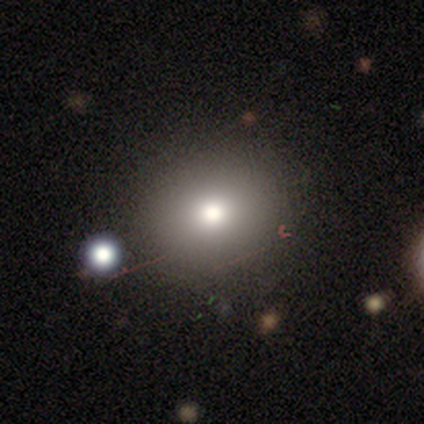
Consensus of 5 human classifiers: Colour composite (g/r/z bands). It shows a smooth galaxy with no disk features (100%) that is round (60%). Merging: none (100%).